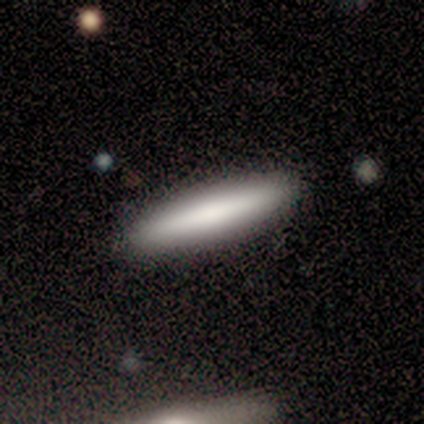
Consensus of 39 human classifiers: A smooth galaxy with no disk features (74%) that is cigar-shaped (97%). Merging: none (86%).